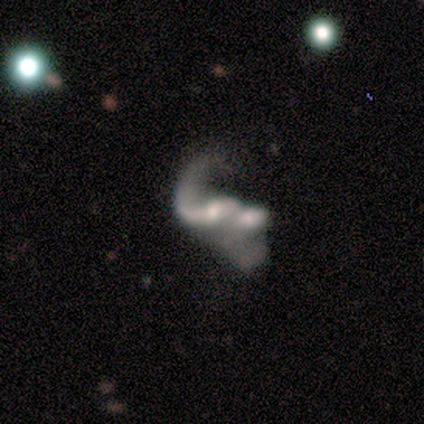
Morphology: type=featured or disk (63%); edge-on=no (100%); bar=weak (50%); spiral arms=yes (83%); winding=loose (90%); arm count=2 (60%); bulge=moderate (42%); merging=merger (81%).